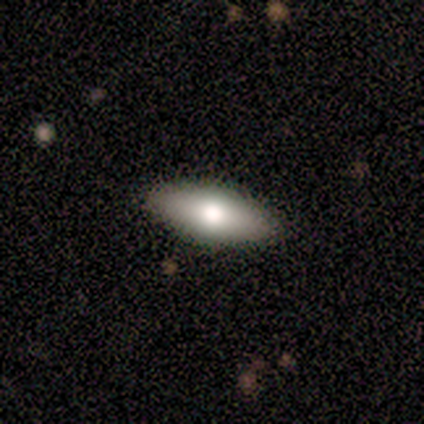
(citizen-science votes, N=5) smooth-or-featured: smooth: 40% (tied) | featured or disk: 40% (tied) | star or artifact: 20%
  how-rounded: in between: 100% | round: 0% | cigar-shaped: 0%
  merging: none: 100% | minor disturbance: 0% | major disturbance: 0% | merger: 0%